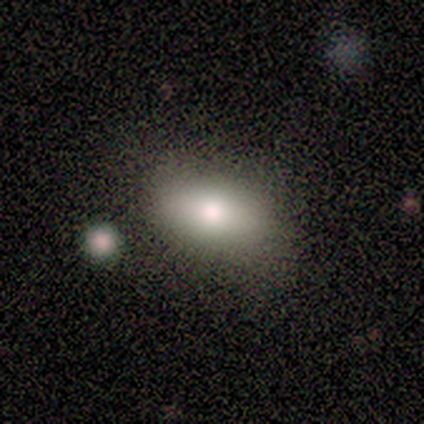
smooth-or-featured: smooth: 80% | featured or disk: 20% | star or artifact: 0%
  how-rounded: in between: 100% | round: 0% | cigar-shaped: 0%
  merging: none: 100% | minor disturbance: 0% | major disturbance: 0% | merger: 0%